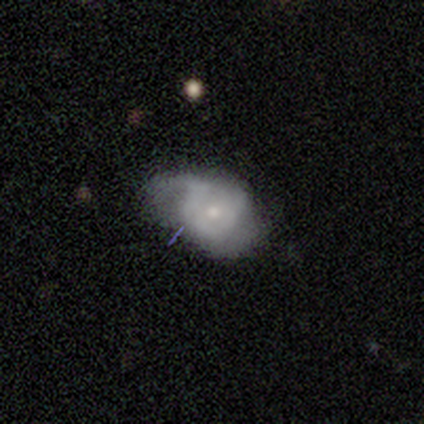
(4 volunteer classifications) A featured or disk galaxy (100%) with a weak bar (50%, tied with no), 1 (33%, tied with 2 and can't tell) loose (67%) spiral arms (75%) and a moderate central bulge (50%, tied with small).

Vote fractions:
- Smooth or featured? featured or disk: 100% / smooth: 0% / star or artifact: 0%
- Edge-on disk? no: 100% / yes: 0%
- Bar? weak: 50% (tied) / no: 50% (tied) / strong: 0%
- Spiral arms? yes: 75% / no: 25%
- Spiral winding? loose: 67% / tight: 33% / medium: 0%
- Spiral arm count? 1: 33% (tied) / 2: 33% (tied) / can't tell: 33% (tied) / 3: 0% / 4: 0% / more than 4: 0%
- Bulge size? moderate: 50% (tied) / small: 50% (tied) / dominant: 0% / large: 0% / none: 0%
- Merging? none: 50% (tied) / minor disturbance: 50% (tied) / major disturbance: 0% / merger: 0%